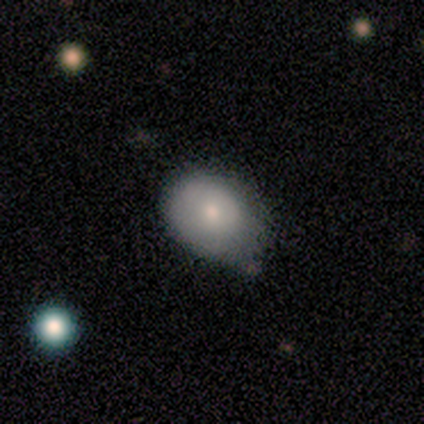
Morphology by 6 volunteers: Overall: smooth (67%; featured or disk 33%). How rounded: in between (75%). Merging: none (100%).